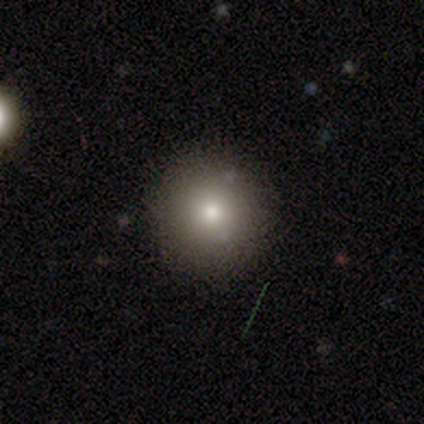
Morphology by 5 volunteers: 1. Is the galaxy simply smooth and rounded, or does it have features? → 60% smooth, 20% featured or disk, 20% star or artifact.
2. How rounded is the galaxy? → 100% round, 0% in between, 0% cigar-shaped.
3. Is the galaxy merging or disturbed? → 75% none, 25% merger, 0% minor disturbance, 0% major disturbance.